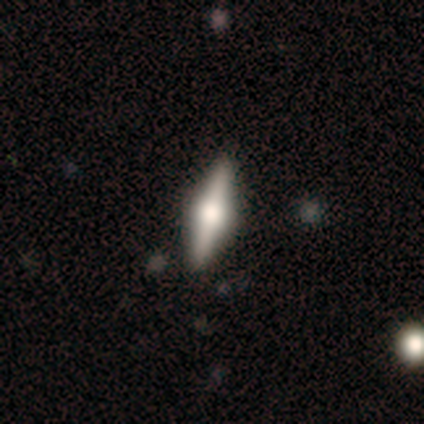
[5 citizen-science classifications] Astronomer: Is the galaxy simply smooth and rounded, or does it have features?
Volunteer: smooth — 60% (runner-up: featured or disk, 40%).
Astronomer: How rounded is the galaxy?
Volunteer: in between — 67%.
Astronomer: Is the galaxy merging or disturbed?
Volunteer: none — 80%.